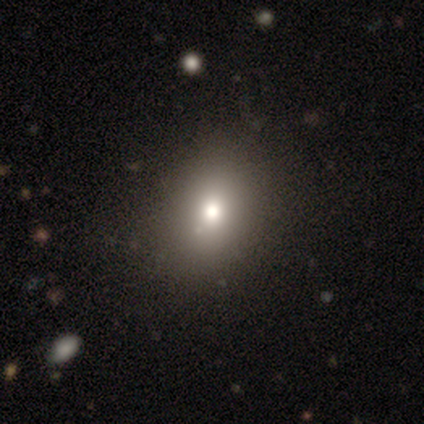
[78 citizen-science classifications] Smooth or featured? 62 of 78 (79%) said smooth. How rounded? 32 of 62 (52%) said round. Merging? 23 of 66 (35%) said none.